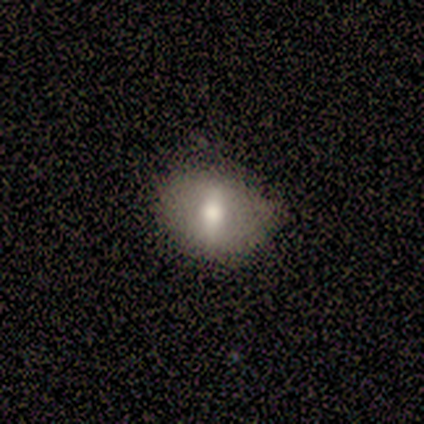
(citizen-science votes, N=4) Overall: smooth (50%, tied with featured or disk). How rounded: round (50%, tied with in between). Merging: none (75%).